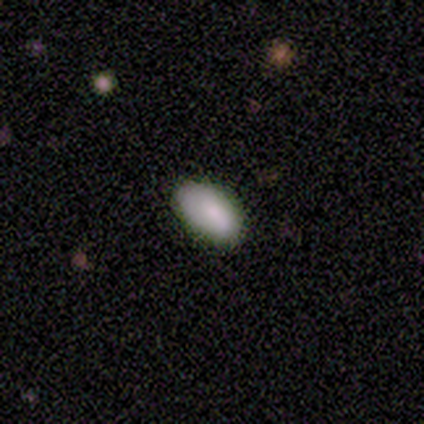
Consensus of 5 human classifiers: A smooth galaxy with no disk features (80%) that is in between round and cigar-shaped (100%). Merging: none (80%).